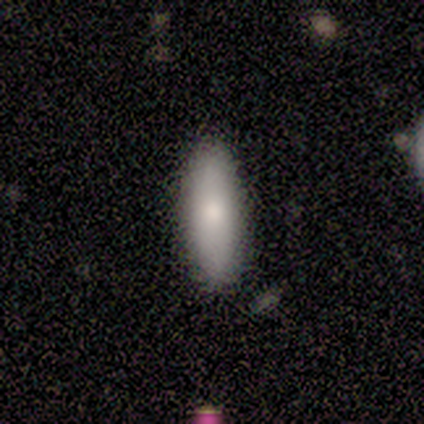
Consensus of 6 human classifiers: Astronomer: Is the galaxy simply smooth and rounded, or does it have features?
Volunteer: smooth — 100%.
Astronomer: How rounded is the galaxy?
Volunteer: in between — 50%, tied with cigar-shaped at 50%.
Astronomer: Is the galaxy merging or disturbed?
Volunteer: none — 83%.